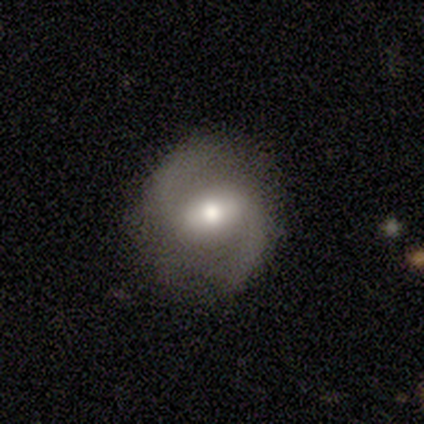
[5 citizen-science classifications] smooth-or-featured: featured or disk: 100% | smooth: 0% | star or artifact: 0%
  disk-edge-on: no: 100% | yes: 0%
    bar: weak: 60% | strong: 20% | no: 20%
    has-spiral-arms: yes: 100% | no: 0%
      spiral-winding: medium: 80% | loose: 20% | tight: 0%
      spiral-arm-count: 2: 100% | 1: 0% | 3: 0% | 4: 0% | more than 4: 0% | can't tell: 0%
    bulge-size: moderate: 40% (tied) | small: 40% (tied) | none: 20% | dominant: 0% | large: 0%
  merging: none: 80% | merger: 20% | minor disturbance: 0% | major disturbance: 0%